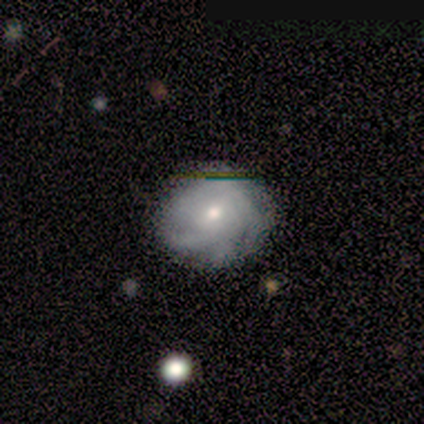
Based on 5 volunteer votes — Overall: featured or disk (60%; smooth 40%). Edge-on disk: no (100%). Bar: weak (67%; no 33%). Spiral arms: yes (100%). Spiral arm count: 3 (33%, tied with more than 4 and can't tell). Spiral winding: tight (67%; medium 33%). Bulge size: small (67%; moderate 33%). Merging: none (60%; minor disturbance 40%).